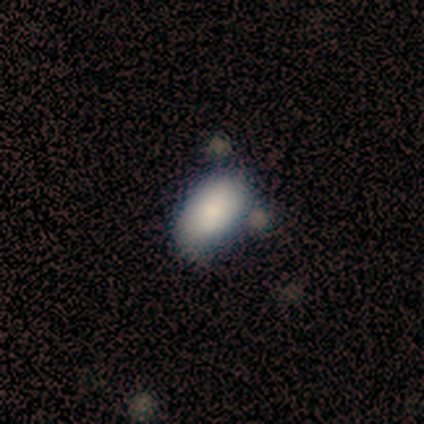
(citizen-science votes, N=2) Q: Smooth or featured?
A: smooth (50%); tied with: featured or disk (50%)
Q: How rounded?
A: in between (100%)
Q: Merging?
A: none (100%)